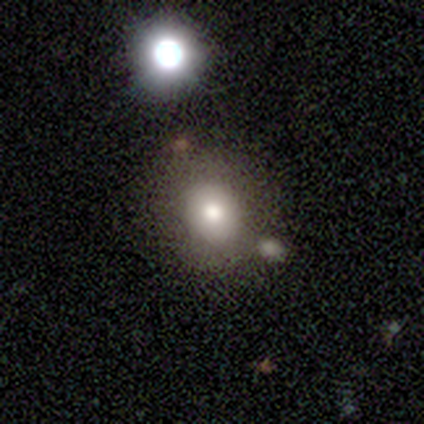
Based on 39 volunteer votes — A smooth galaxy with no disk features (82%) that is round (75%).

Vote fractions:
- Smooth or featured? smooth: 82% / featured or disk: 10% / star or artifact: 8%
- How rounded? round: 75% / in between: 25% / cigar-shaped: 0%
- Merging? none: 75% / merger: 11% / minor disturbance: 8% / major disturbance: 6%